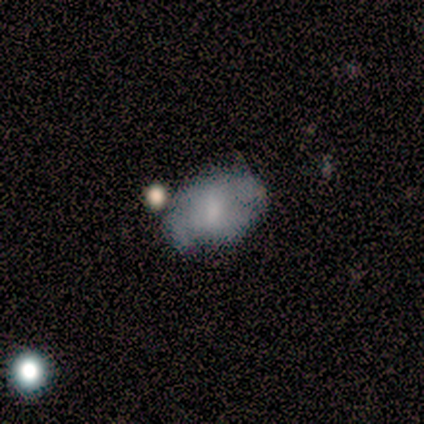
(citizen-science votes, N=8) smooth-or-featured: smooth: 62% | featured or disk: 38% | star or artifact: 0%
  how-rounded: in between: 80% | round: 20% | cigar-shaped: 0%
  merging: none: 38% (tied) | minor disturbance: 38% (tied) | major disturbance: 12% | merger: 12%